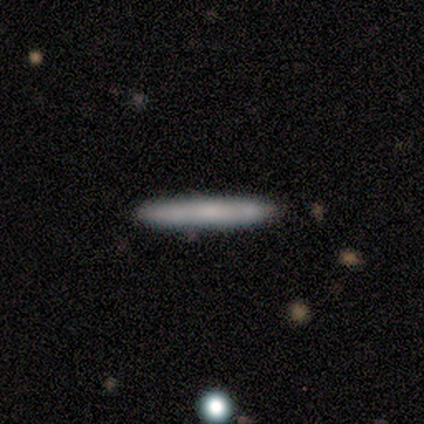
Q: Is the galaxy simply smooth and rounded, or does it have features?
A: smooth — 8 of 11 (73%).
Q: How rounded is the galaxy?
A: cigar-shaped — 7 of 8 (88%).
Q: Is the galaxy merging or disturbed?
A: none — 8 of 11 (73%).